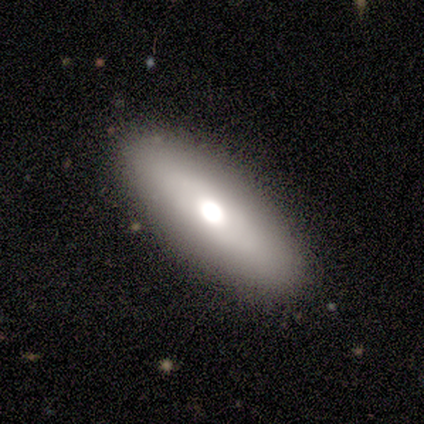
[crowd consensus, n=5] smooth 60%, featured or disk 40%, star or artifact 0%. Down the decision tree: how rounded — in between (67%); merging — none (60%).